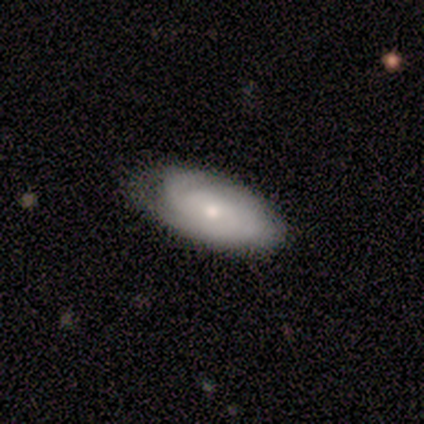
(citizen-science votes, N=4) Overall: smooth (50%, tied with featured or disk). How rounded: in between (100%). Merging: none (50%, tied with minor disturbance).